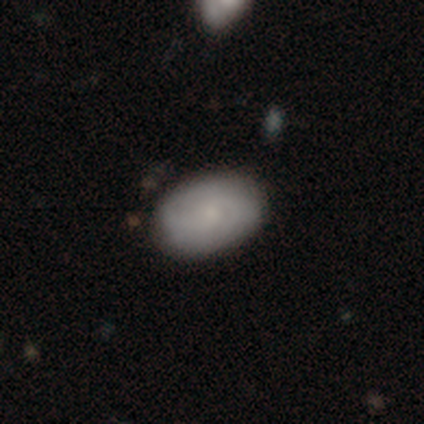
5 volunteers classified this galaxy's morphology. Q: Smooth or featured?
A: smooth (80%); runner-up: featured or disk (20%)
Q: How rounded?
A: in between (100%)
Q: Merging?
A: none (60%); runner-up: minor disturbance (40%)